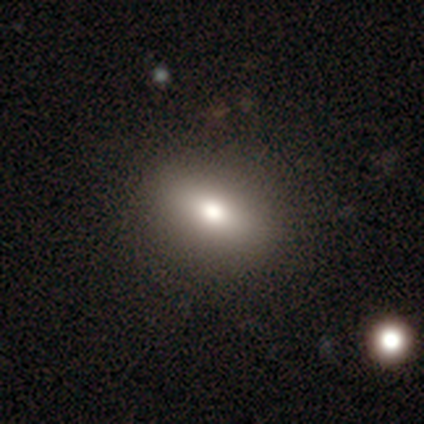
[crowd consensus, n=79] A smooth galaxy with no disk features (76%) that is in between round and cigar-shaped (67%). Merging: none (41%).